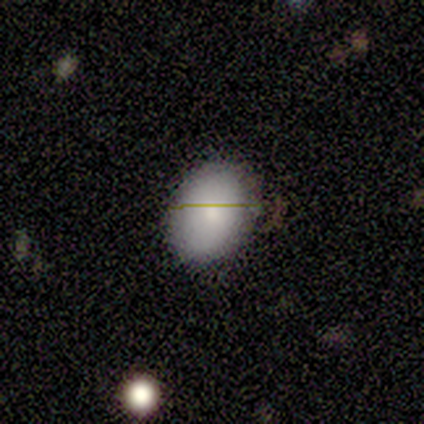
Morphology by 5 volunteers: A smooth galaxy with no disk features (100%) that is in between round and cigar-shaped (100%). Merging: none (60%).